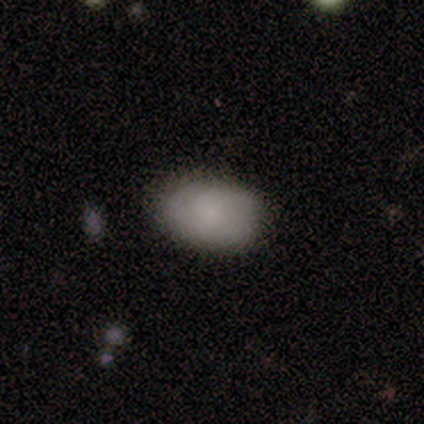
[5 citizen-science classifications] Smooth or featured? 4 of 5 (80%) said smooth. How rounded? 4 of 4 (100%) said in between. Merging? 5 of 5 (100%) said none.